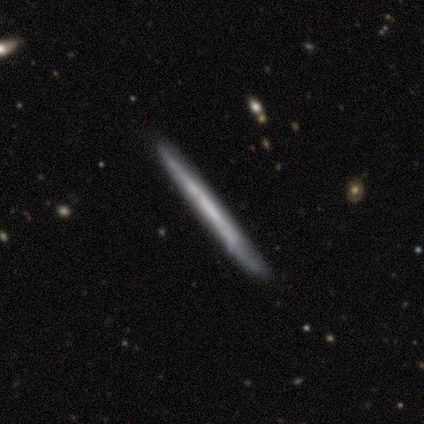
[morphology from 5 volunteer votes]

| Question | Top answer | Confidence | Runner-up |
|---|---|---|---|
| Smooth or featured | featured or disk | 80% | star or artifact (20%) |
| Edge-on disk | yes | 75% | no (25%) |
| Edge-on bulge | none | 100% | — |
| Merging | none | 75% | minor disturbance (25%) |